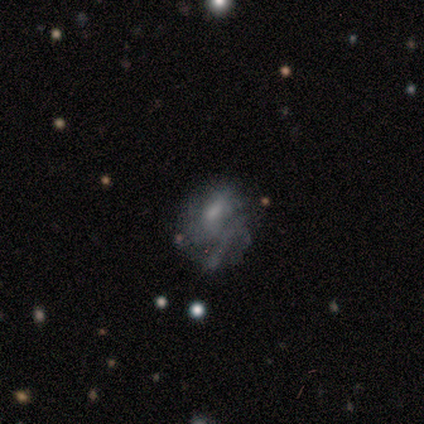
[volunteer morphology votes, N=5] A smooth galaxy with no disk features (60%) that is round (67%). Merging: major disturbance (60%).